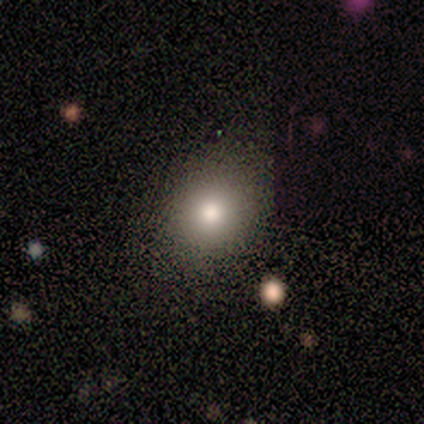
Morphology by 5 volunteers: Smooth or featured? 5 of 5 (100%) said smooth. How rounded? 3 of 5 (60%) said in between. Merging? 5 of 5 (100%) said none.